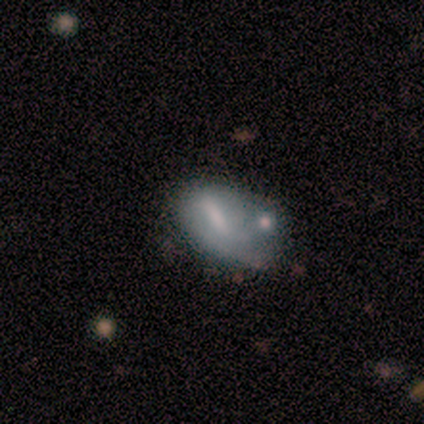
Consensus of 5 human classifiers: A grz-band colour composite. It shows a smooth galaxy with no disk features (60%) that is in between round and cigar-shaped (100%). Merging: minor disturbance (50%, tied with merger).